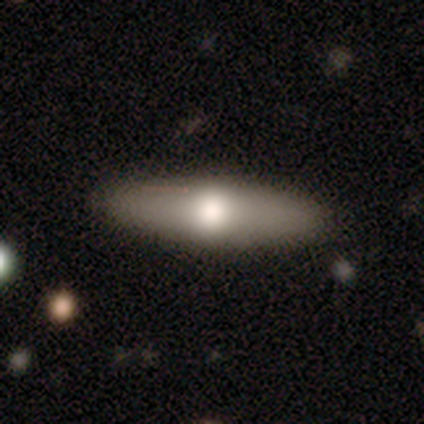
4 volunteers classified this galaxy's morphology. smooth 75%, featured or disk 25%, star or artifact 0%. Down the decision tree: how rounded — in between (67%); merging — none (100%).